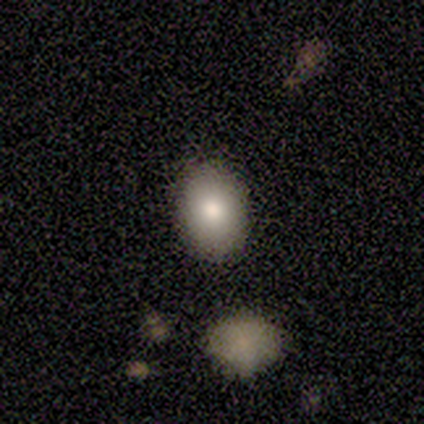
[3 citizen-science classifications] A smooth galaxy with no disk features (100%) that is in between round and cigar-shaped (67%).

Vote fractions:
- Smooth or featured? smooth: 100% / featured or disk: 0% / star or artifact: 0%
- How rounded? in between: 67% / round: 33% / cigar-shaped: 0%
- Merging? none: 100% / minor disturbance: 0% / major disturbance: 0% / merger: 0%